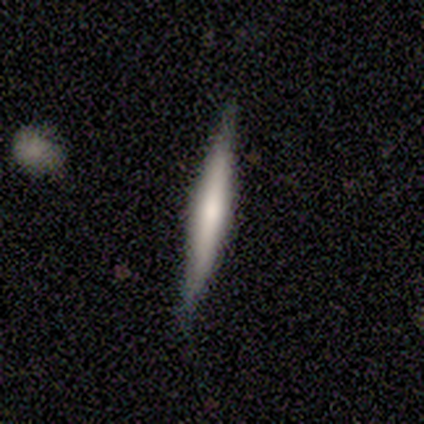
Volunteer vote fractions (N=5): Morphology: type=featured or disk (80%); edge-on=yes (100%); edge-on bulge=boxy (50%); merging=minor disturbance (60%).